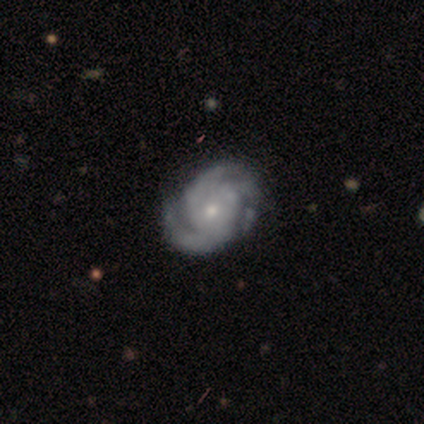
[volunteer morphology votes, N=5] smooth_or_featured: featured or disk (p=1.00)
disk_edge_on: no (p=1.00)
bar: no (p=0.60) [alt: strong p=0.20]
has_spiral_arms: yes (p=1.00)
spiral_winding: tight (p=0.80) [alt: medium p=0.20]
spiral_arm_count: 3 (p=0.60) [alt: 2 p=0.20]
bulge_size: small (p=0.80) [alt: moderate p=0.20]
merging: minor disturbance (p=0.40) [tied with: major disturbance p=0.40]